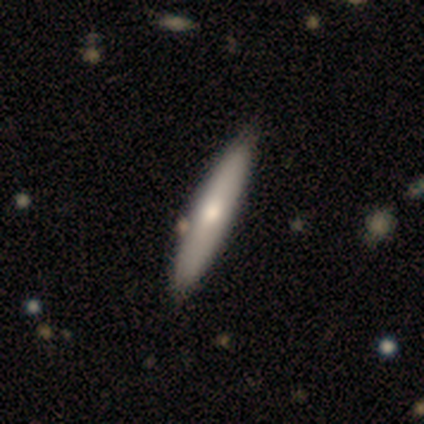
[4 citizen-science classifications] smooth_or_featured: featured or disk (p=0.75) [alt: star or artifact p=0.25]
disk_edge_on: yes (p=1.00)
edge_on_bulge: none (p=1.00)
merging: none (p=1.00)